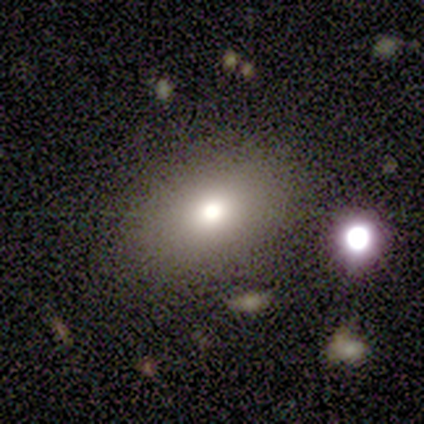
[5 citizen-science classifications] Volunteers were most divided on "smooth or featured": smooth: 60%, star or artifact: 40%, featured or disk: 0%. More confident: merging — none (100%); how rounded — in between (67%).